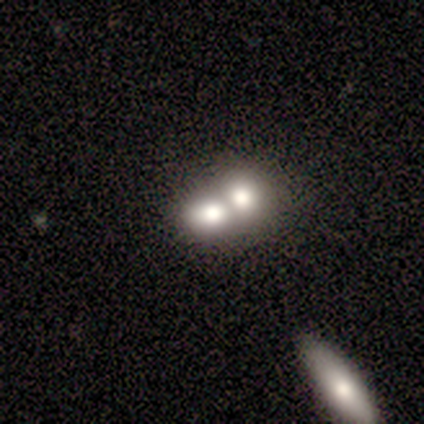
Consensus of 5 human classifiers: Morphology: type=featured or disk (60%); edge-on=no (100%); bar=no (100%); spiral arms=no (100%); bulge=large (100%); merging=merger (80%).